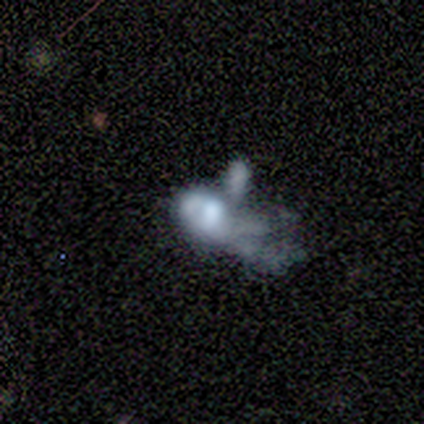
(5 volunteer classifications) smooth-or-featured: smooth: 60% | featured or disk: 40% | star or artifact: 0%
  how-rounded: in between: 67% | round: 33% | cigar-shaped: 0%
  merging: major disturbance: 60% | merger: 40% | none: 0% | minor disturbance: 0%